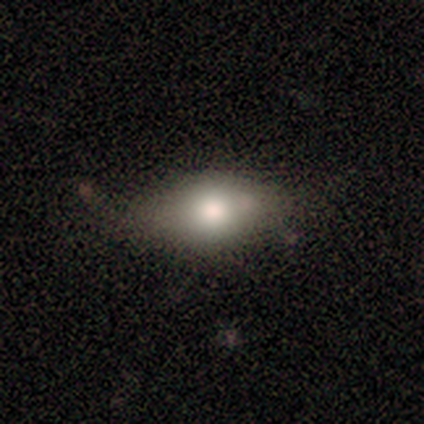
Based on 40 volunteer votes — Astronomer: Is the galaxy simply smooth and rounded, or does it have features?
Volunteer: smooth — 85%.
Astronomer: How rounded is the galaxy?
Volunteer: in between — 76%.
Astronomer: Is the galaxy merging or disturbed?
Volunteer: none — 76%.